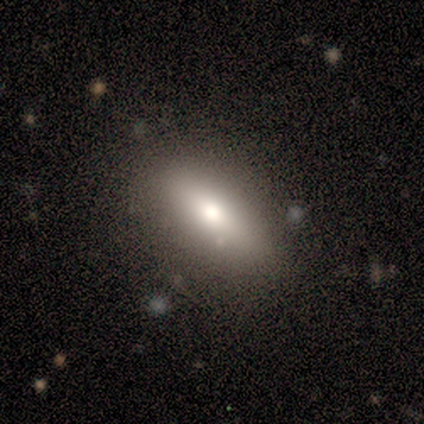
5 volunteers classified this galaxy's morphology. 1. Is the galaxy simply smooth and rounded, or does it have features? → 40% smooth (tied), 40% featured or disk (tied), 20% star or artifact.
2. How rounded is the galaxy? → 50% in between (tied), 50% cigar-shaped (tied), 0% round.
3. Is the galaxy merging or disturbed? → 100% none, 0% minor disturbance, 0% major disturbance, 0% merger.